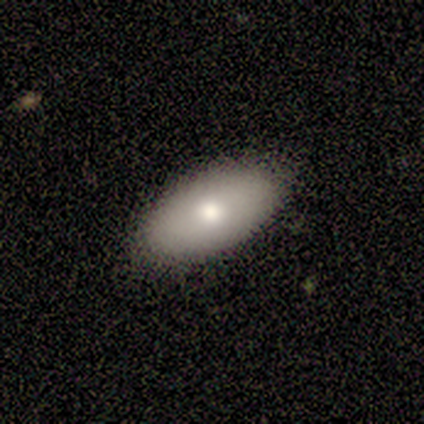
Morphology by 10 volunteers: A smooth galaxy with no disk features (80%) that is in between round and cigar-shaped (100%).

Vote fractions:
- Smooth or featured? smooth: 80% / featured or disk: 20% / star or artifact: 0%
- How rounded? in between: 100% / round: 0% / cigar-shaped: 0%
- Merging? none: 100% / minor disturbance: 0% / major disturbance: 0% / merger: 0%